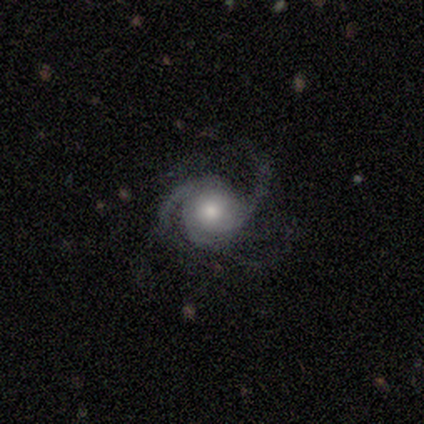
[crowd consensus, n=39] Smooth or featured: featured or disk — 95% (smooth — 3%)
Edge-on disk: no — 100%
Bar: no — 92% (weak — 5%)
Spiral arms: yes — 100%
Spiral winding: medium — 43% (tight — 35%)
Spiral arm count: 3 — 54% (2 — 32%)
Bulge size: moderate — 57% (large — 24%)
Merging: none — 63% (major disturbance — 24%)